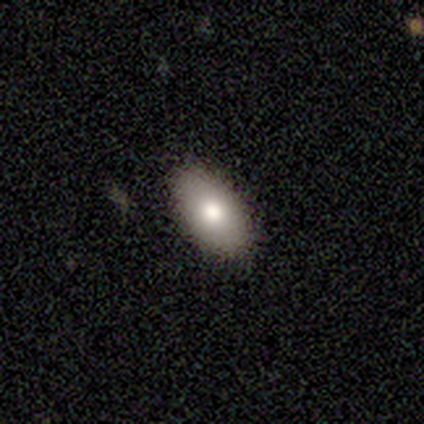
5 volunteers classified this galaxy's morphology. Overall: smooth (100%). How rounded: in between (100%). Merging: none (100%).